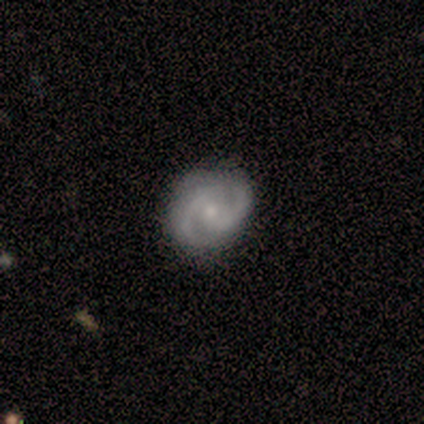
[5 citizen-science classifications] A featured or disk galaxy (60%) with a weak bar (67%), 2 (100%) tight (33%, tied with medium and loose) spiral arms (100%) and a small central bulge (67%). Merging: none (80%).